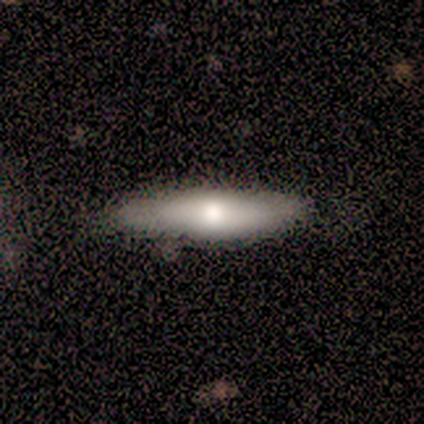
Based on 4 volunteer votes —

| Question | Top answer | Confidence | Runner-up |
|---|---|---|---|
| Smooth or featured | smooth | 50% | tied: featured or disk (50%) |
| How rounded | in between | 50% | tied: cigar-shaped (50%) |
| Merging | none | 75% | minor disturbance (25%) |